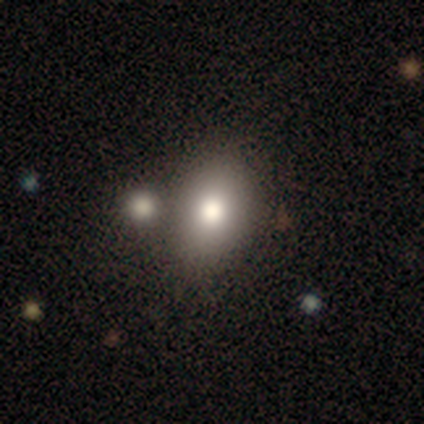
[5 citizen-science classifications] Overall: smooth (100%). How rounded: in between (60%; round 40%). Merging: none (60%; major disturbance 20%).